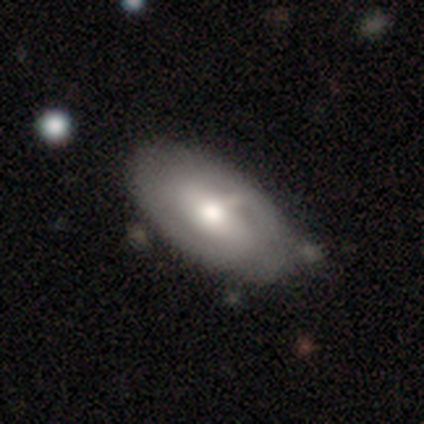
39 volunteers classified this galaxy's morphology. smooth-or-featured: featured or disk: 59% | smooth: 41% | star or artifact: 0%
  disk-edge-on: no: 91% | yes: 9%
    bar: no: 43% | weak: 33% | strong: 24%
    has-spiral-arms: yes: 52% | no: 48%
      spiral-winding: tight: 36% (tied) | medium: 36% (tied) | loose: 27%
      spiral-arm-count: 2: 73% | can't tell: 18% | 3: 9% | 1: 0% | 4: 0% | more than 4: 0%
    bulge-size: moderate: 67% | large: 29% | dominant: 5% | small: 0% | none: 0%
  merging: none: 64% | minor disturbance: 10% | merger: 8% | major disturbance: 5%